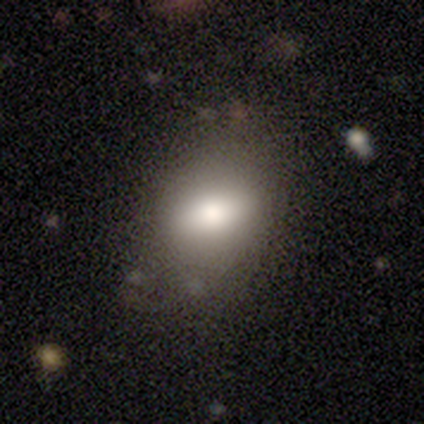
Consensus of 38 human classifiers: Overall: smooth (71%). How rounded: in between (67%; round 30%). Merging: none (75%).